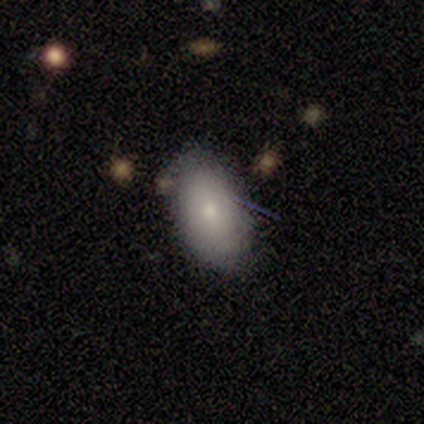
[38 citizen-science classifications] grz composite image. It shows a smooth galaxy with no disk features (84%) that is in between round and cigar-shaped (91%). Merging: none (67%).